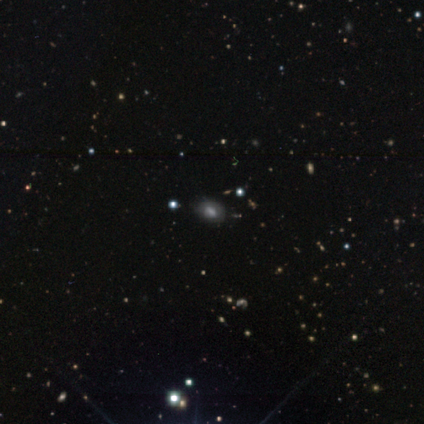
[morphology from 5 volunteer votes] This appears to be a smooth galaxy with no disk features (80%) that is in between round and cigar-shaped (100%). Merging: none (100%).